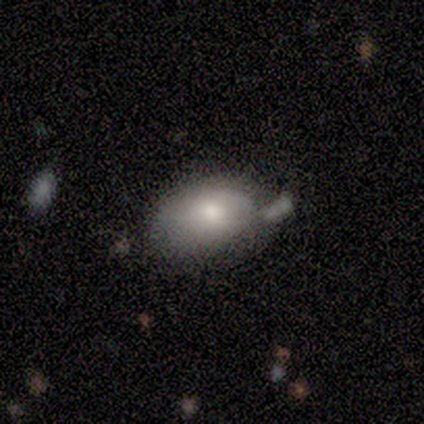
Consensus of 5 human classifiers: smooth_or_featured: smooth (p=0.80) [alt: star or artifact p=0.20]
how_rounded: in between (p=1.00)
merging: minor disturbance (p=0.50) [alt: none p=0.25]